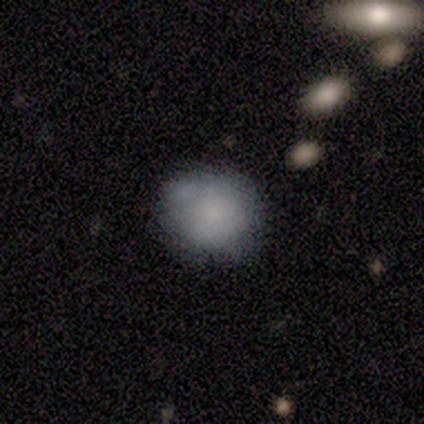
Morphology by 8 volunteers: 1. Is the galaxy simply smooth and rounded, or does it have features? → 75% smooth, 25% featured or disk, 0% star or artifact.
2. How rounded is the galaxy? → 83% round, 17% in between, 0% cigar-shaped.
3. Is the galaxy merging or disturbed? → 50% none (tied), 50% minor disturbance (tied), 0% major disturbance, 0% merger.